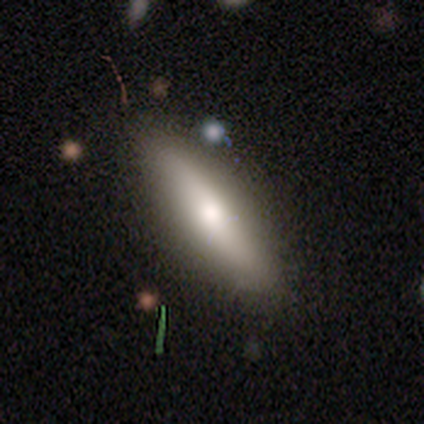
Smooth or featured? smooth (60%)
How rounded? in between (58%)
Merging? none (59%)